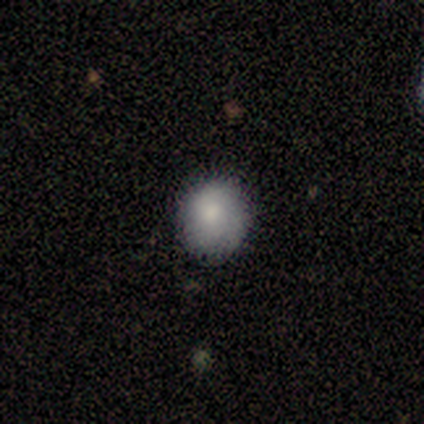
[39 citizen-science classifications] A smooth galaxy with no disk features (79%) that is round (81%). Merging: none (58%).